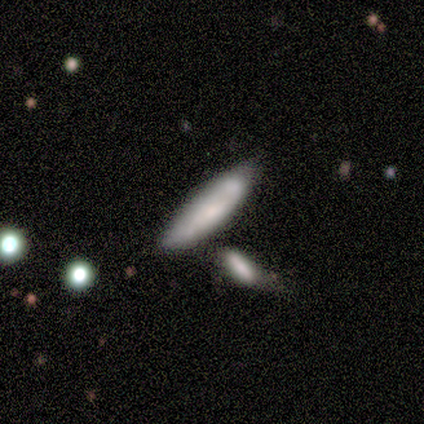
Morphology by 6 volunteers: This appears to be a smooth galaxy with no disk features (50%) that is cigar-shaped (100%). Merging: none (60%).